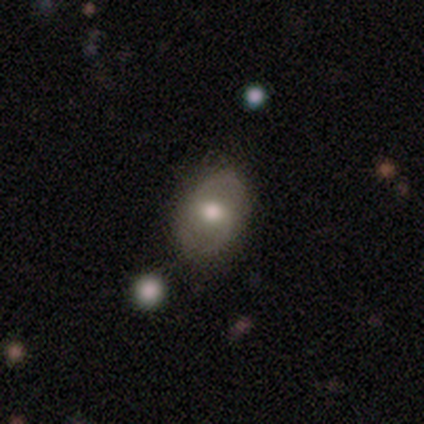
Q: Smooth or featured?
A: featured or disk (57%); runner-up: smooth (29%)
Q: Edge-on disk?
A: no (100%)
Q: Bar?
A: weak (50%); tied with: no (50%)
Q: Spiral arms?
A: no (75%); runner-up: yes (25%)
Q: Bulge size?
A: moderate (100%)
Q: Merging?
A: none (67%); runner-up: minor disturbance (17%)